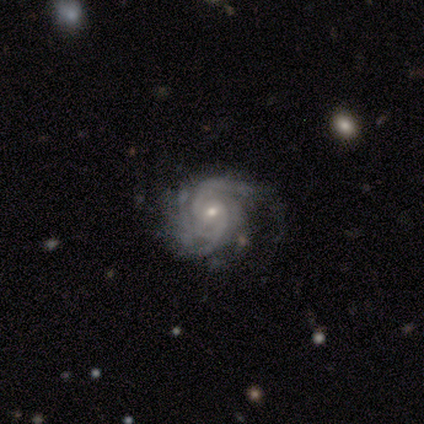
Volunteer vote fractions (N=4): smooth_or_featured: featured or disk (p=1.00)
disk_edge_on: no (p=1.00)
bar: no (p=1.00)
has_spiral_arms: yes (p=1.00)
spiral_winding: tight (p=1.00)
spiral_arm_count: can't tell (p=0.50) [alt: 2 p=0.25]
bulge_size: small (p=0.75) [alt: moderate p=0.25]
merging: none (p=0.50) [tied with: minor disturbance p=0.50]